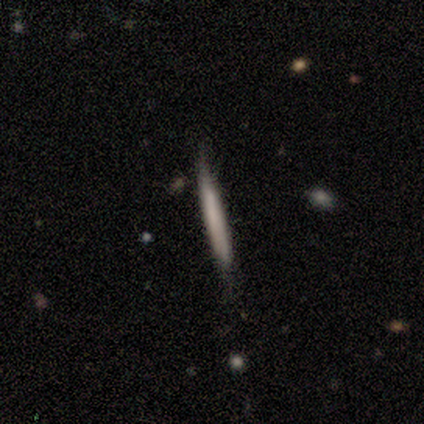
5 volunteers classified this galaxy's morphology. Smooth or featured?
  - smooth: 80% *
  - featured or disk: 20%
  - star or artifact: 0%
How rounded?
  - cigar-shaped: 100% *
  - round: 0%
  - in between: 0%
Merging?
  - none: 80% *
  - major disturbance: 20%
  - minor disturbance: 0%
  - merger: 0%